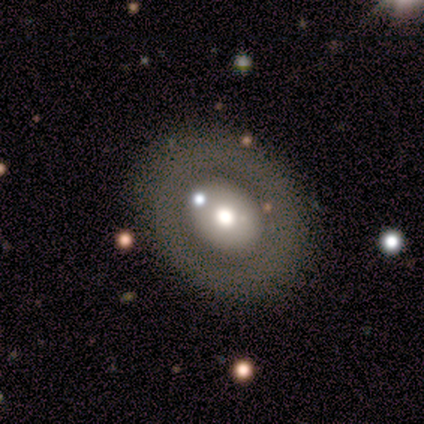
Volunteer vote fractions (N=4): smooth-or-featured: smooth: 50% | featured or disk: 25% | star or artifact: 25%
  how-rounded: round: 50% (tied) | in between: 50% (tied) | cigar-shaped: 0%
  merging: none: 100% | minor disturbance: 0% | major disturbance: 0% | merger: 0%